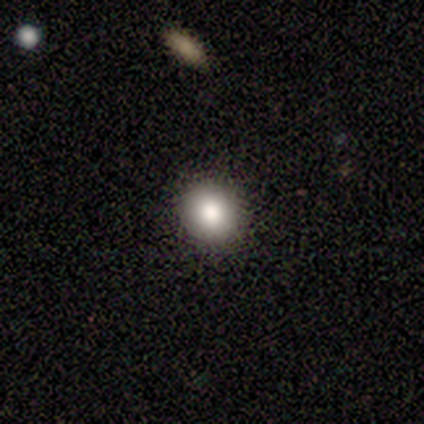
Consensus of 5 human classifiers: This appears to be a smooth galaxy with no disk features (60%) that is round (67%). Merging: none (75%).